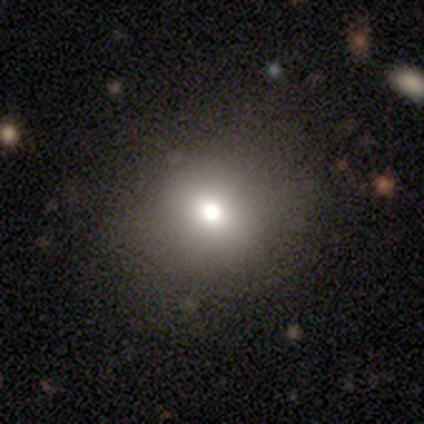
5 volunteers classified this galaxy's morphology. A smooth galaxy with no disk features (80%) that is round (100%).

Vote fractions:
- Smooth or featured? smooth: 80% / featured or disk: 20% / star or artifact: 0%
- How rounded? round: 100% / in between: 0% / cigar-shaped: 0%
- Merging? none: 80% / minor disturbance: 20% / major disturbance: 0% / merger: 0%